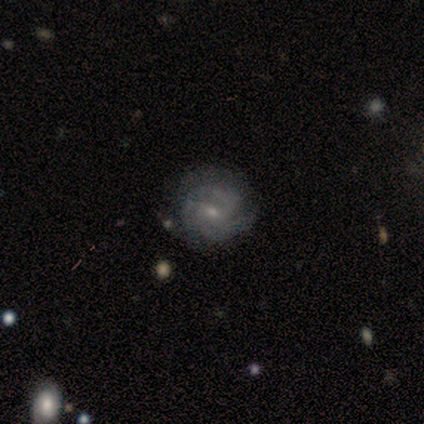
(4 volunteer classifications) Q: Smooth or featured?
A: featured or disk (75%); runner-up: smooth (25%)
Q: Edge-on disk?
A: no (100%)
Q: Bar?
A: no (67%); runner-up: weak (33%)
Q: Spiral arms?
A: yes (67%); runner-up: no (33%)
Q: Spiral winding?
A: tight (50%); tied with: medium (50%)
Q: Spiral arm count?
A: 2 (50%); tied with: can't tell (50%)
Q: Bulge size?
A: small (100%)
Q: Merging?
A: none (75%); runner-up: minor disturbance (25%)